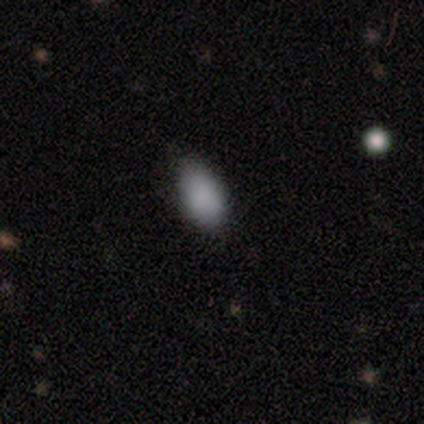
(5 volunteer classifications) A smooth galaxy with no disk features (80%) that is in between round and cigar-shaped (50%, tied with cigar-shaped). Merging: none (100%).